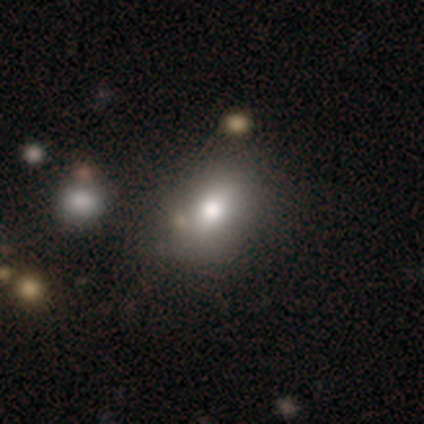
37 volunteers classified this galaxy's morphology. Smooth or featured? smooth (81%)
How rounded? in between (70%)
Merging? none (60%)